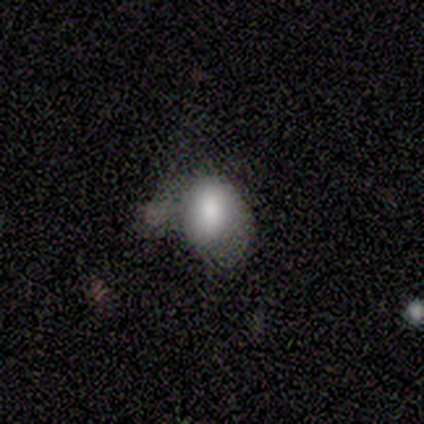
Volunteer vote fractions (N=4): Q: Smooth or featured?
A: smooth (100%)
Q: How rounded?
A: in between (75%); runner-up: round (25%)
Q: Merging?
A: none (25%); tied with: minor disturbance (25%); major disturbance (25%); merger (25%)